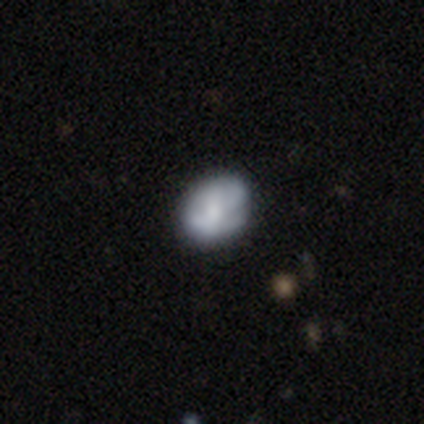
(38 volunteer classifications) Smooth or featured? featured or disk (55%)
Edge-on disk? no (100%)
Bar? no (71%)
Spiral arms? no (67%)
Bulge size? moderate (38%)
Merging? none (50%)